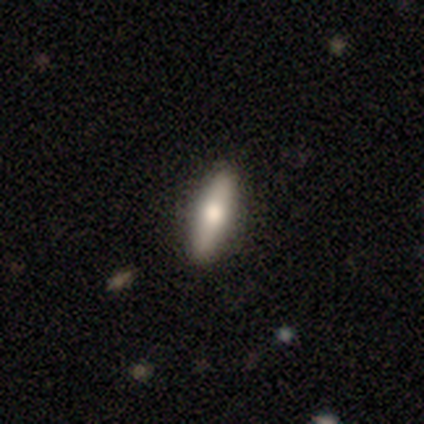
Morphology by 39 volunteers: A smooth galaxy with no disk features (67%) that is cigar-shaped (65%). Merging: none (86%).